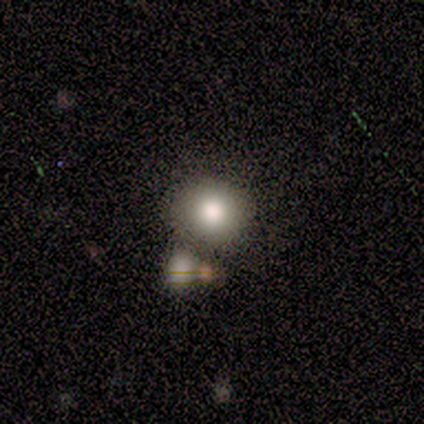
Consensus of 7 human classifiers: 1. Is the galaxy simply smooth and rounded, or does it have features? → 86% smooth, 14% star or artifact, 0% featured or disk.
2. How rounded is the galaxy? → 50% round (tied), 50% in between (tied), 0% cigar-shaped.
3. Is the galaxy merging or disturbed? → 100% none, 0% minor disturbance, 0% major disturbance, 0% merger.